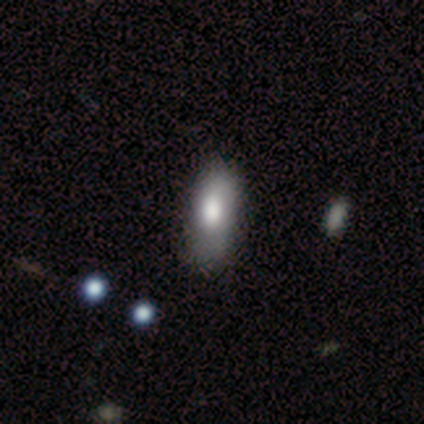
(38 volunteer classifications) Smooth or featured?
  - smooth: 74% *
  - featured or disk: 16%
  - star or artifact: 11%
How rounded?
  - in between: 86% *
  - cigar-shaped: 14%
  - round: 0%
Merging?
  - none: 59% *
  - minor disturbance: 15%
  - major disturbance: 6%
  - merger: 0%